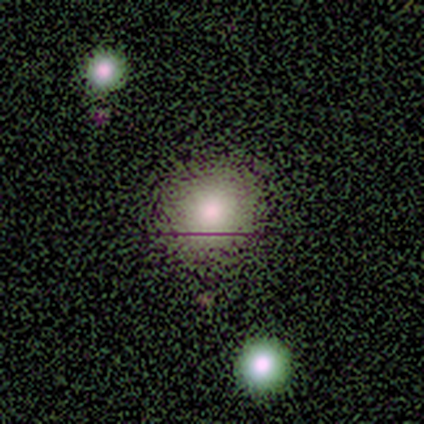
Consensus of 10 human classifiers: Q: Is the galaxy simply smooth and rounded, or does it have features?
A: smooth — 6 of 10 (60%).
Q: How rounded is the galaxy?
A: round — 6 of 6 (100%).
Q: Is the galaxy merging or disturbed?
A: none — 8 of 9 (89%).